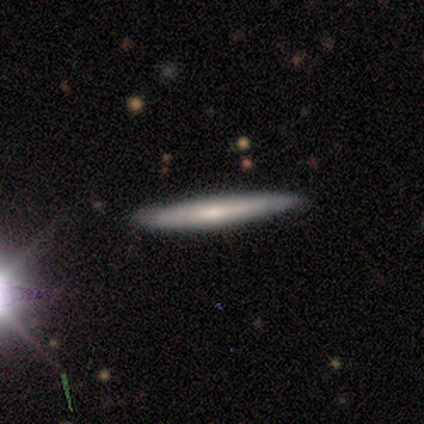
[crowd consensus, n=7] smooth 57%, featured or disk 43%, star or artifact 0%. Down the decision tree: how rounded — cigar-shaped (100%); merging — none (100%).